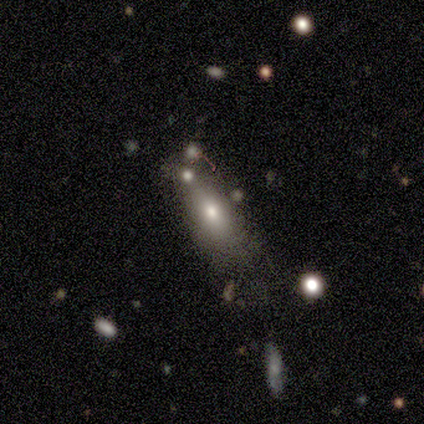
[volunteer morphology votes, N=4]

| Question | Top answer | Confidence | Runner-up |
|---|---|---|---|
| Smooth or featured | smooth | 75% | featured or disk (25%) |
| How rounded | in between | 67% | cigar-shaped (33%) |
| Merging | none | 50% | major disturbance (25%) |